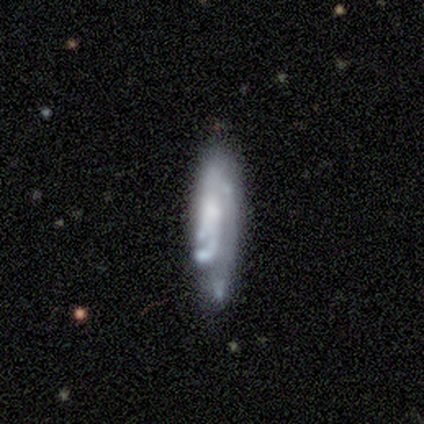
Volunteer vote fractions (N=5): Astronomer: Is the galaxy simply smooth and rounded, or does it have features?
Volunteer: featured or disk — 60% (runner-up: smooth, 40%).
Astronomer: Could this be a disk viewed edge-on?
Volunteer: no — 100%.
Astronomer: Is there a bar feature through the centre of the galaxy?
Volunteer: weak — 67%.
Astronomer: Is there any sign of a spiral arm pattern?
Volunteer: yes — 67%.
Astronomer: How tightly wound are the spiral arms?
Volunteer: tight — 100%.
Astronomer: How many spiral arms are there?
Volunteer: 2 — 50%, tied with 3 at 50%.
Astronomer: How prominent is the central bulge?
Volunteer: moderate — 67%.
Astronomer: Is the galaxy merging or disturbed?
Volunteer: minor disturbance — 60%.